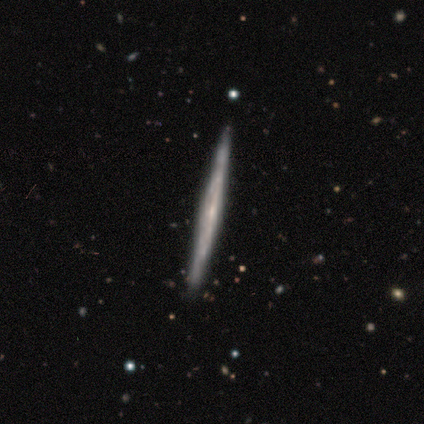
Smooth or featured?
  - featured or disk: 71% *
  - smooth: 14%
  - star or artifact: 14%
Edge-on disk?
  - yes: 100% *
  - no: 0%
Edge-on bulge?
  - none: 100% *
  - boxy: 0%
  - rounded: 0%
Merging?
  - none: 67% *
  - minor disturbance: 33%
  - major disturbance: 0%
  - merger: 0%